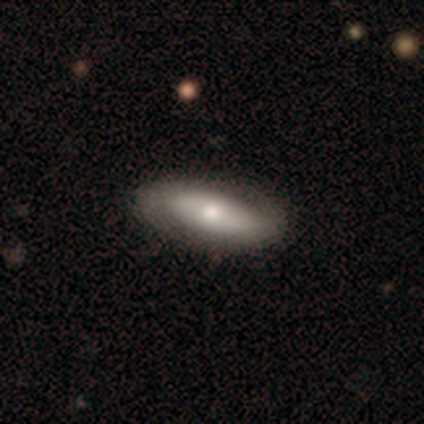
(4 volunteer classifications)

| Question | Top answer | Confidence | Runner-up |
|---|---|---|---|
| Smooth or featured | smooth | 75% | featured or disk (25%) |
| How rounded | in between | 67% | cigar-shaped (33%) |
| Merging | none | 100% | — |